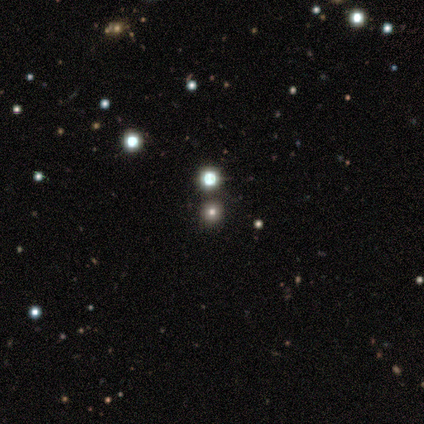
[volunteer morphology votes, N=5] smooth_or_featured: star or artifact (p=0.80) [alt: smooth p=0.20]